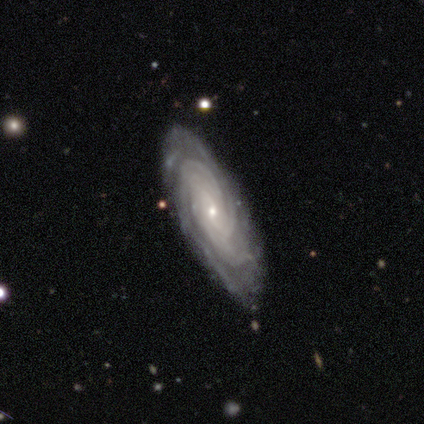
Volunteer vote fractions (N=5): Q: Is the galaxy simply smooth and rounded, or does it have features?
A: featured or disk — 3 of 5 (60%).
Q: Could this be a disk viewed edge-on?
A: no — 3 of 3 (100%).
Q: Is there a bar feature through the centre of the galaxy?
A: no — 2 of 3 (67%).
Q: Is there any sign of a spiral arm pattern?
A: yes — 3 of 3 (100%).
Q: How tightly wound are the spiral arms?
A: tight — 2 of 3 (67%).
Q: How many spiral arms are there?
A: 3 — 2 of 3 (67%).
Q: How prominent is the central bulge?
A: small — 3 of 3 (100%).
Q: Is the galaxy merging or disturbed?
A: none — 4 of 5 (80%).